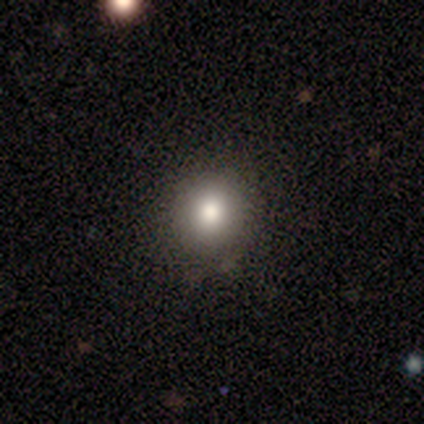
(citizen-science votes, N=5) A smooth galaxy with no disk features (80%) that is round (100%). Merging: none (100%).